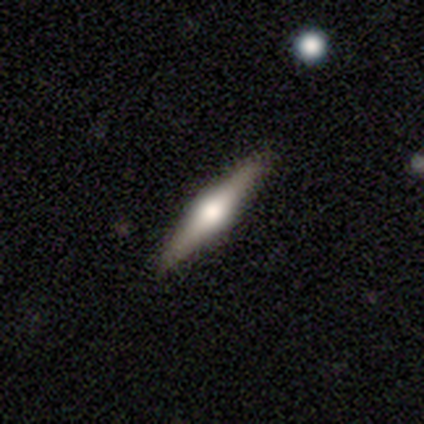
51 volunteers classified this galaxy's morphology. A featured or disk galaxy (67%) viewed edge-on (97%) with a rounded central bulge (88%).

Vote fractions:
- Smooth or featured? featured or disk: 67% / smooth: 29% / star or artifact: 4%
- Edge-on disk? yes: 97% / no: 3%
- Edge-on bulge? rounded: 88% / boxy: 9% / none: 3%
- Merging? none: 94% / minor disturbance: 6% / major disturbance: 0% / merger: 0%